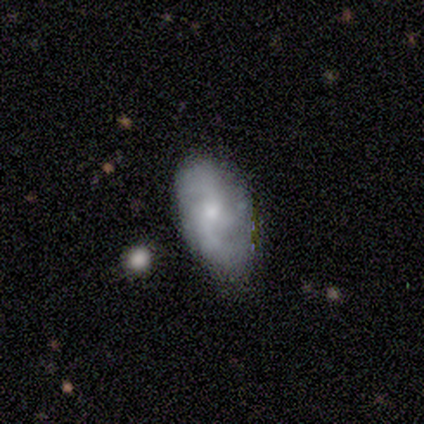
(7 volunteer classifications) smooth-or-featured: featured or disk: 86% | smooth: 14% | star or artifact: 0%
  disk-edge-on: no: 83% | yes: 17%
    bar: no: 80% | weak: 20% | strong: 0%
    has-spiral-arms: yes: 100% | no: 0%
      spiral-winding: medium: 40% (tied) | loose: 40% (tied) | tight: 20%
      spiral-arm-count: 2: 40% (tied) | 3: 40% (tied) | can't tell: 20% | 1: 0% | 4: 0% | more than 4: 0%
    bulge-size: small: 60% | moderate: 40% | dominant: 0% | large: 0% | none: 0%
  merging: none: 86% | minor disturbance: 14% | major disturbance: 0% | merger: 0%